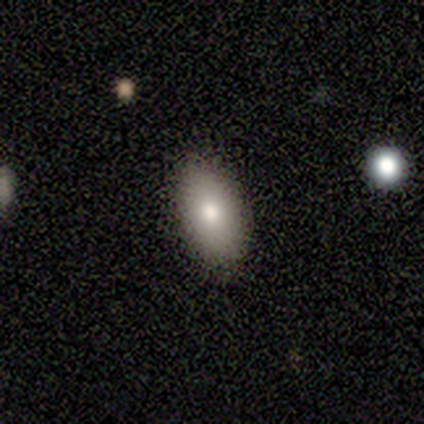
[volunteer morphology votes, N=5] type=smooth (60%); roundness=in between (67%); merging=none (100%).